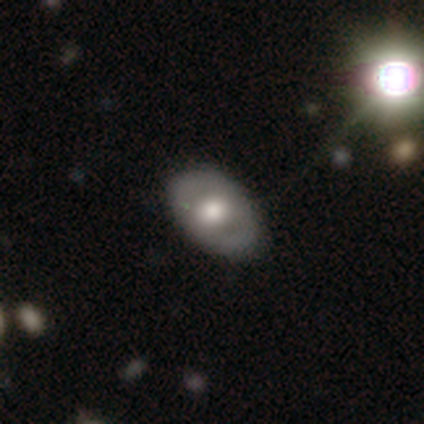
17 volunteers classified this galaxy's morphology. smooth 71%, featured or disk 29%, star or artifact 0%. Down the decision tree: how rounded — in between (92%); merging — none (88%).